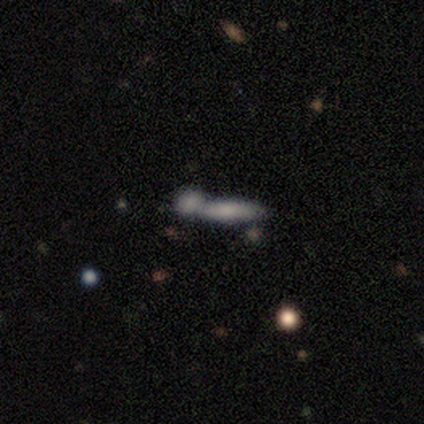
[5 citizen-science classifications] This appears to be a featured or disk galaxy (60%) viewed edge-on (67%) with no central bulge (50%, tied with rounded). Merging: merger (60%).